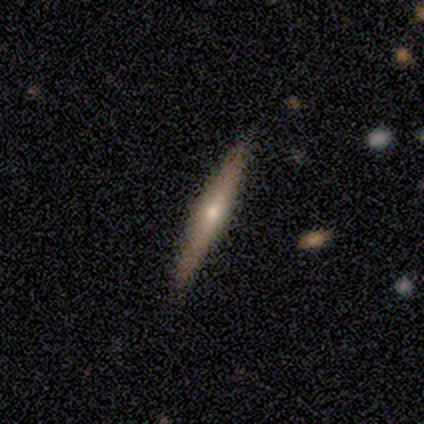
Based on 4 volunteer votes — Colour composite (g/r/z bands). It shows a featured or disk galaxy (75%) viewed edge-on (100%) with a rounded central bulge (67%). Merging: none (100%).